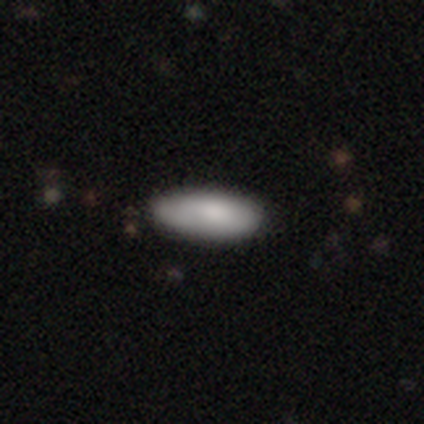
A smooth galaxy with no disk features (79%) that is in between round and cigar-shaped (73%).

Vote fractions:
- Smooth or featured? smooth: 79% / featured or disk: 13% / star or artifact: 8%
- How rounded? in between: 73% / cigar-shaped: 23% / round: 3%
- Merging? none: 51% / minor disturbance: 11% / merger: 6% / major disturbance: 3%